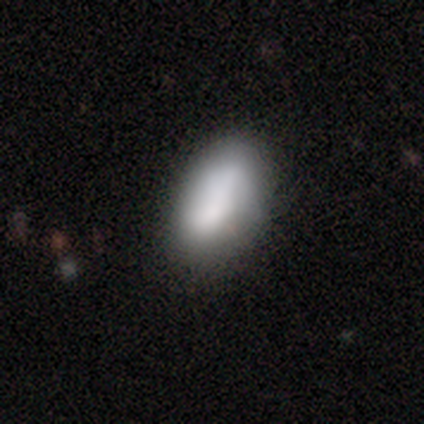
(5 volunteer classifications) Smooth or featured? 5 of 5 (100%) said smooth. How rounded? 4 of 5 (80%) said in between. Merging? 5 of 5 (100%) said none.